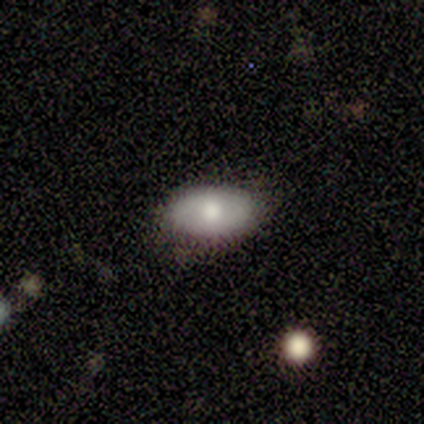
This is likely a smooth galaxy (67%). How rounded: clearly in between (100%). Merging: clearly none (80%).